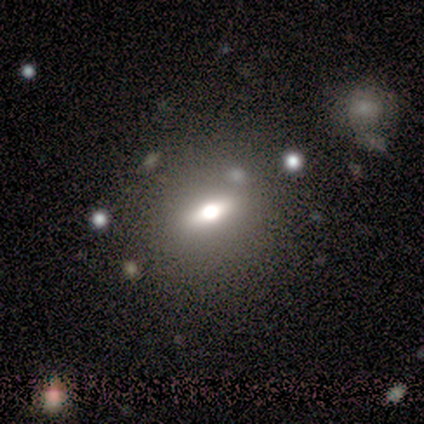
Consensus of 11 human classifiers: smooth_or_featured: smooth (p=0.73) [alt: featured or disk p=0.27]
how_rounded: in between (p=0.62) [alt: round p=0.25]
merging: none (p=0.64) [alt: minor disturbance p=0.18]